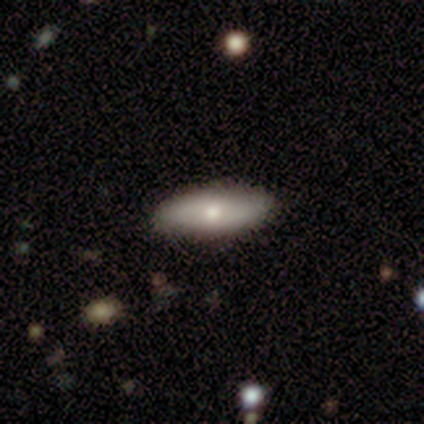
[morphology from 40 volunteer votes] smooth 78%, featured or disk 15%, star or artifact 8%. Down the decision tree: how rounded — in between (71%); merging — none (95%).